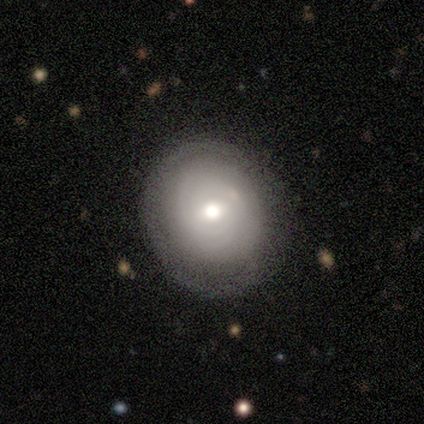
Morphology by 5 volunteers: Overall: featured or disk (60%; smooth 40%). Edge-on disk: no (100%). Bar: no (67%; weak 33%). Spiral arms: yes (67%; no 33%). Spiral arm count: can't tell (100%). Spiral winding: tight (100%). Bulge size: moderate (67%; large 33%). Merging: none (80%).